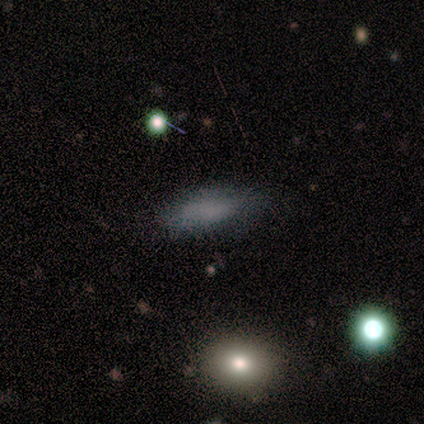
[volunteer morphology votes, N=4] smooth 50%, featured or disk 25%, star or artifact 25%. Down the decision tree: how rounded — in between (100%); merging — minor disturbance (67%).